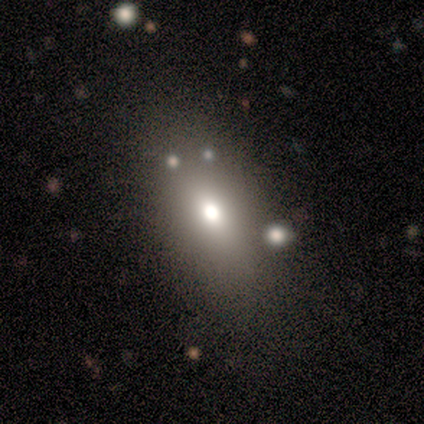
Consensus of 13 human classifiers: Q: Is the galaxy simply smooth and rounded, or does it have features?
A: smooth — 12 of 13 (92%).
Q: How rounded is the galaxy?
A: in between — 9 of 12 (75%).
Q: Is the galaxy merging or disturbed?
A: none — 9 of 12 (75%).